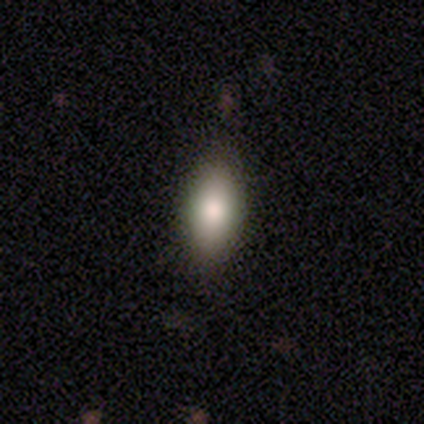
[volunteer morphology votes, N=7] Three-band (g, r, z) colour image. It shows a smooth galaxy with no disk features (71%) that is in between round and cigar-shaped (100%). Merging: none (83%).